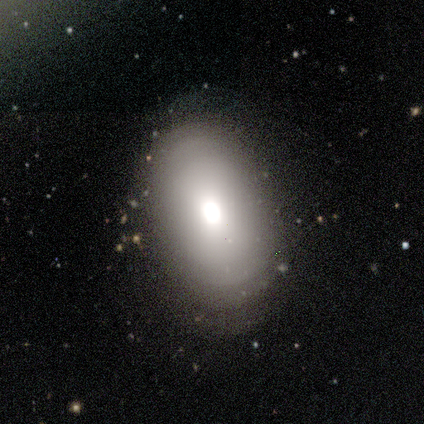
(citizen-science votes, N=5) Smooth or featured?
  - featured or disk: 60% *
  - smooth: 40%
  - star or artifact: 0%
Edge-on disk?
  - no: 100% *
  - yes: 0%
Bar?
  - no: 67% *
  - weak: 33%
  - strong: 0%
Spiral arms?
  - no: 67% *
  - yes: 33%
Bulge size?
  - large: 67% *
  - none: 33%
  - dominant: 0%
  - moderate: 0%
  - small: 0%
Merging?
  - none: 60% *
  - minor disturbance: 40%
  - major disturbance: 0%
  - merger: 0%